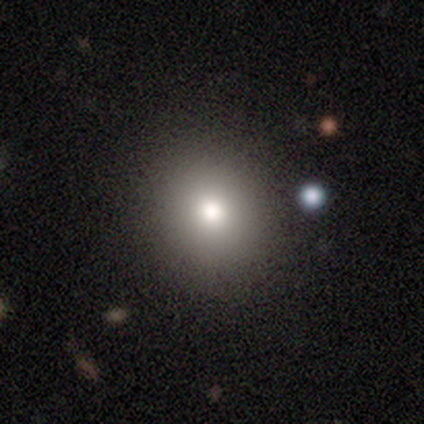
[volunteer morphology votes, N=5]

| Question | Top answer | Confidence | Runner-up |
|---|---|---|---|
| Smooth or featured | smooth | 100% | — |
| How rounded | round | 80% | in between (20%) |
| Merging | none | 100% | — |